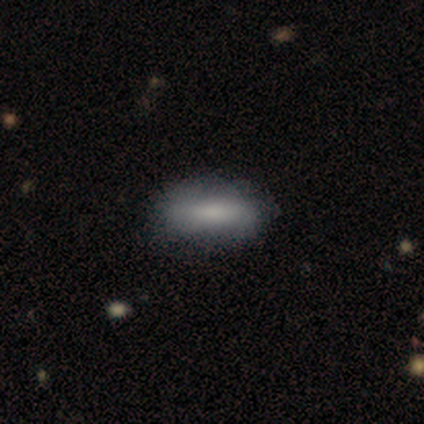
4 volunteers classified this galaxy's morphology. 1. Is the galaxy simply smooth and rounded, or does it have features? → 100% smooth, 0% featured or disk, 0% star or artifact.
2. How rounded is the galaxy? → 50% in between (tied), 50% cigar-shaped (tied), 0% round.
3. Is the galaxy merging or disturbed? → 75% none, 25% minor disturbance, 0% major disturbance, 0% merger.